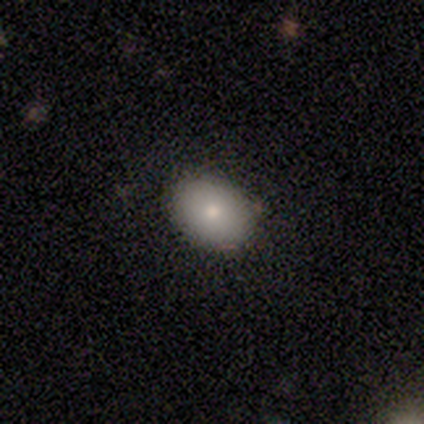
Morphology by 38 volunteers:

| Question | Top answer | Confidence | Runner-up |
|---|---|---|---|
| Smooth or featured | smooth | 92% | featured or disk (8%) |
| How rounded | in between | 77% | round (23%) |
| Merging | none | 87% | minor disturbance (11%) |